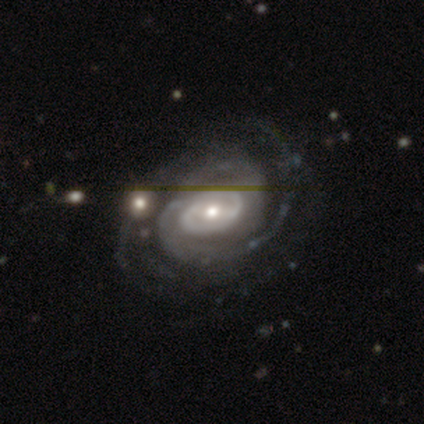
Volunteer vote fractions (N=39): featured or disk 90%, smooth 5%, star or artifact 5%. Down the decision tree: edge-on disk — no (97%); bar — no (41%); spiral arms — yes (97%); spiral arm count — 2 (36%); spiral winding — tight (67%); bulge size — moderate (71%); merging — none (70%).